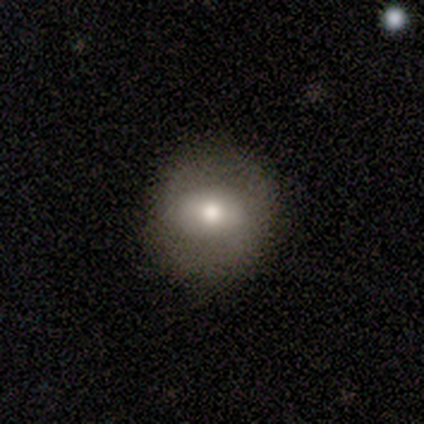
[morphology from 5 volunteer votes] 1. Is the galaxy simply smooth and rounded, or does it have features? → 60% smooth, 20% featured or disk, 20% star or artifact.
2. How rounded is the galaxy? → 67% round, 33% in between, 0% cigar-shaped.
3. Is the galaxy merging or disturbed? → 100% none, 0% minor disturbance, 0% major disturbance, 0% merger.